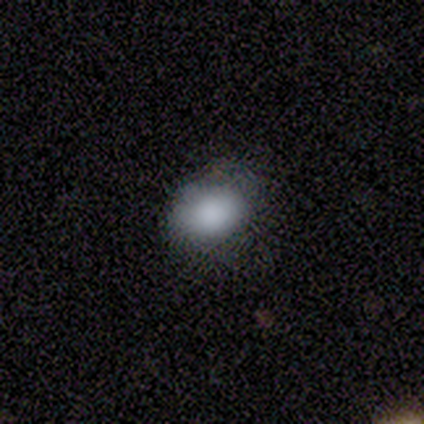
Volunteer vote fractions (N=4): Volunteers were most divided on "how rounded": in between: 75%, round: 25%, cigar-shaped: 0%. More confident: smooth or featured — smooth (100%); merging — none (100%).